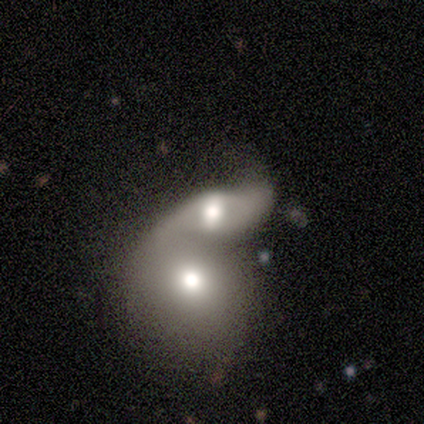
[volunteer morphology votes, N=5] A smooth galaxy with no disk features (80%) that is in between round and cigar-shaped (75%). Merging: merger (80%).